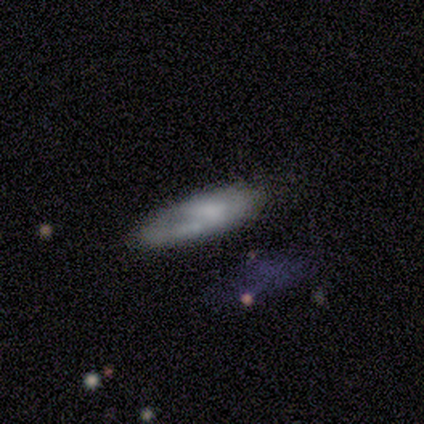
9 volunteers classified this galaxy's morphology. smooth_or_featured: smooth (p=0.67) [alt: featured or disk p=0.33]
how_rounded: cigar-shaped (p=0.67) [alt: in between p=0.33]
merging: none (p=0.44) [alt: minor disturbance p=0.33]